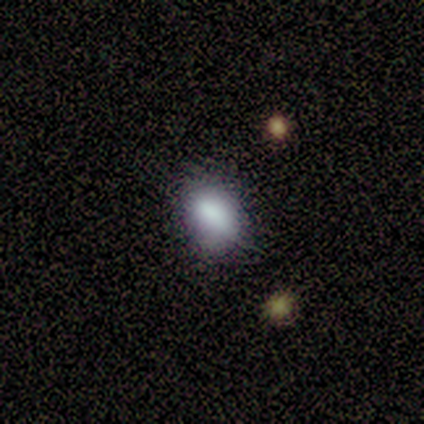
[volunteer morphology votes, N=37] smooth-or-featured: smooth: 76% | featured or disk: 22% | star or artifact: 3%
  how-rounded: in between: 79% | round: 18% | cigar-shaped: 4%
  merging: none: 58% | minor disturbance: 39% | merger: 3% | major disturbance: 0%